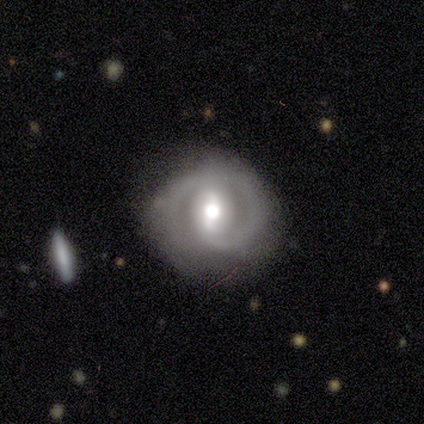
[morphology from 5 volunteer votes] type=featured or disk (80%); edge-on=no (100%); bar=strong (50%, tied with weak); spiral arms=yes (75%); winding=tight (67%); arm count=2 (67%); bulge=moderate (75%); merging=none (60%).